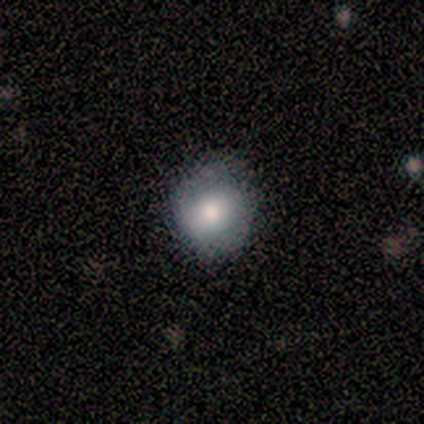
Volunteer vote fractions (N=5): smooth-or-featured: smooth: 60% | featured or disk: 20% | star or artifact: 20%
  how-rounded: round: 100% | in between: 0% | cigar-shaped: 0%
  merging: none: 50% | minor disturbance: 25% | major disturbance: 25% | merger: 0%